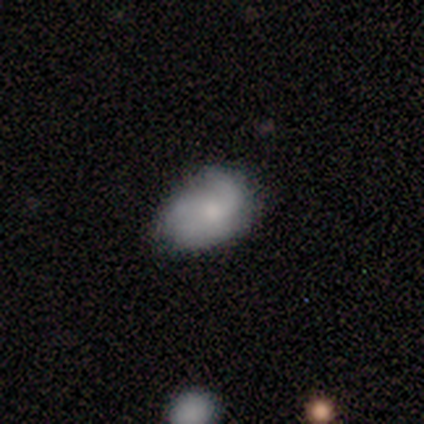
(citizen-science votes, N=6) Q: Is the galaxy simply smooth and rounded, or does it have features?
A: smooth — 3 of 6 (50%).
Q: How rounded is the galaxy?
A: in between — 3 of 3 (100%).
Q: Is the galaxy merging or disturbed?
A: none — 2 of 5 (40%, tied with minor disturbance).